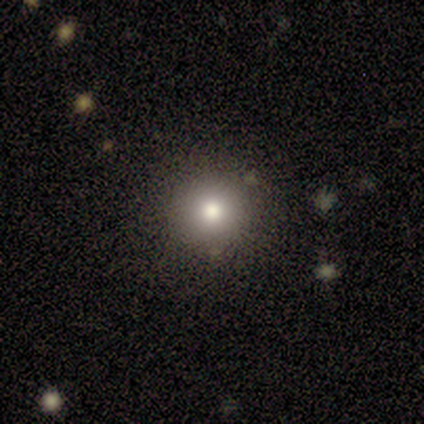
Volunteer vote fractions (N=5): This appears to be a smooth galaxy with no disk features (100%) that is round (100%). Merging: none (80%).